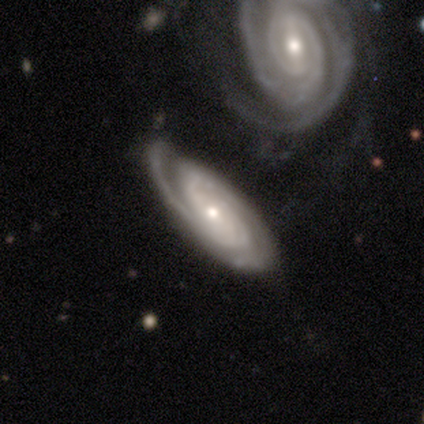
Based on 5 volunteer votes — Smooth or featured? 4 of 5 (80%) said featured or disk. Edge-on disk? 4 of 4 (100%) said no. Bar? 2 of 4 (50%, tied with no) said weak. Spiral arms? 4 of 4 (100%) said yes. Spiral winding? 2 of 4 (50%, tied with medium) said tight. Spiral arm count? 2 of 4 (50%) said can't tell. Bulge size? 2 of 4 (50%, tied with small) said moderate. Merging? 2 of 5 (40%, tied with minor disturbance) said none.